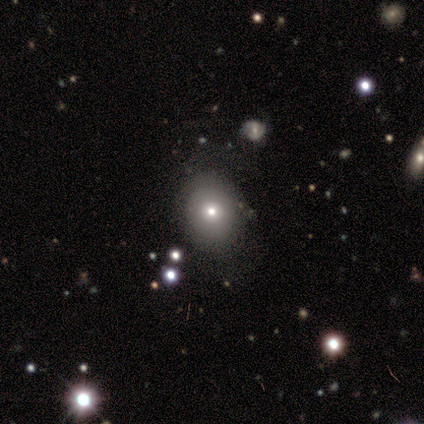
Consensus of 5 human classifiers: A smooth galaxy with no disk features (80%) that is in between round and cigar-shaped (100%).

Vote fractions:
- Smooth or featured? smooth: 80% / star or artifact: 20% / featured or disk: 0%
- How rounded? in between: 100% / round: 0% / cigar-shaped: 0%
- Merging? none: 50% / minor disturbance: 25% / major disturbance: 25% / merger: 0%